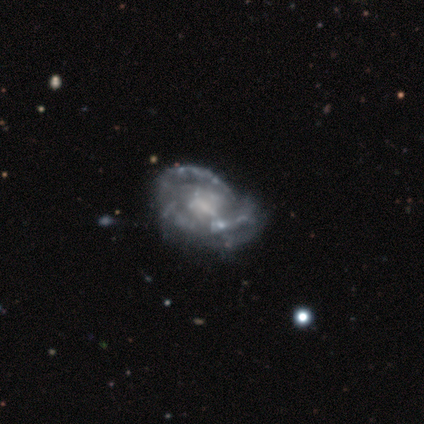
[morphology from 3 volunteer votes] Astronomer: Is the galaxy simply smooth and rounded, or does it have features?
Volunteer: featured or disk — 100%.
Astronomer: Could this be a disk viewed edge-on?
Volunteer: no — 100%.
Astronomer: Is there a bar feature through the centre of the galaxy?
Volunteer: no — 67%.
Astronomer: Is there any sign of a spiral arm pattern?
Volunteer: yes — 67%.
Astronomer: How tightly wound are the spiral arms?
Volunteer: tight — 100%.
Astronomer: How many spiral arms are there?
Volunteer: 3 — 50%, tied with 4 at 50%.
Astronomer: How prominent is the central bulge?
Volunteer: small — 67%.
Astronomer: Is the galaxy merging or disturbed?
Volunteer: major disturbance — 67%.